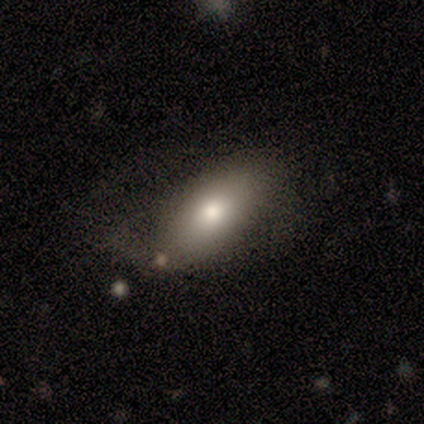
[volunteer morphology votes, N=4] Volunteers were most divided on "merging" (2-way tie): none: 50%, major disturbance: 50%, minor disturbance: 0%, merger: 0%. More confident: how rounded — in between (100%); smooth or featured — smooth (75%).